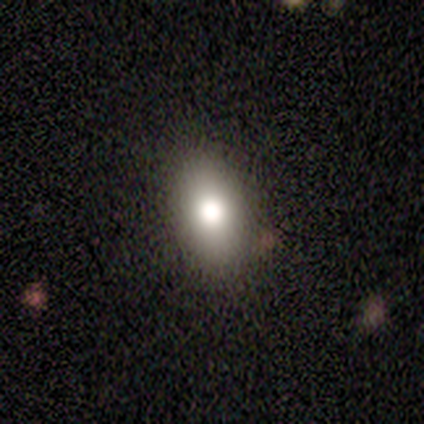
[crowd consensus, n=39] Volunteers were most divided on "smooth or featured": smooth: 72%, star or artifact: 15%, featured or disk: 13%. More confident: merging — none (94%); how rounded — in between (86%).